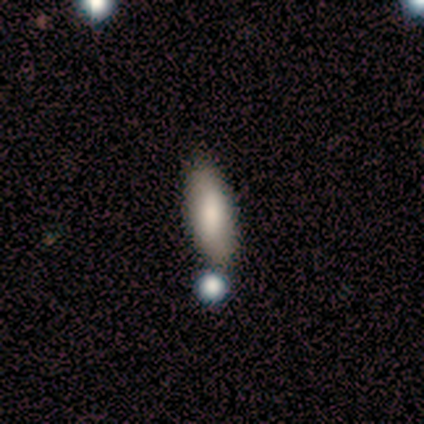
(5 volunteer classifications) smooth-or-featured: smooth: 80% | featured or disk: 20% | star or artifact: 0%
  how-rounded: in between: 50% (tied) | cigar-shaped: 50% (tied) | round: 0%
  merging: none: 80% | minor disturbance: 20% | major disturbance: 0% | merger: 0%